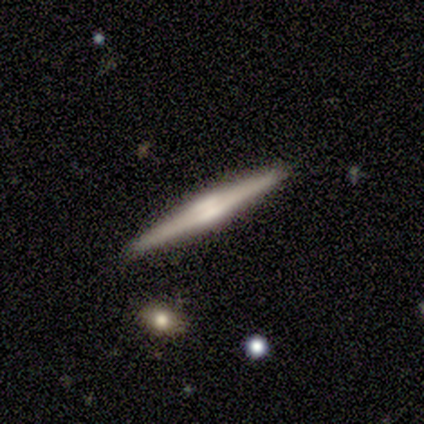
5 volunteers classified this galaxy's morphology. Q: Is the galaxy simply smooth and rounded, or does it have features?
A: featured or disk — 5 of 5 (100%).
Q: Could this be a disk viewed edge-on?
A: yes — 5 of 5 (100%).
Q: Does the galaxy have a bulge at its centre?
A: boxy — 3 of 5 (60%).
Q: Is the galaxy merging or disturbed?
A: none — 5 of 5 (100%).